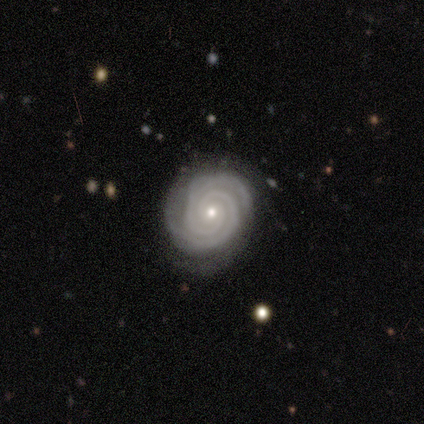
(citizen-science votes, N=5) Smooth or featured: featured or disk — 80% (star or artifact — 20%)
Edge-on disk: no — 100%
Bar: no — 100%
Spiral arms: yes — 100%
Spiral winding: tight — 100%
Spiral arm count: 2 — 100%
Bulge size: small — 100%
Merging: none — 75% (minor disturbance — 25%)